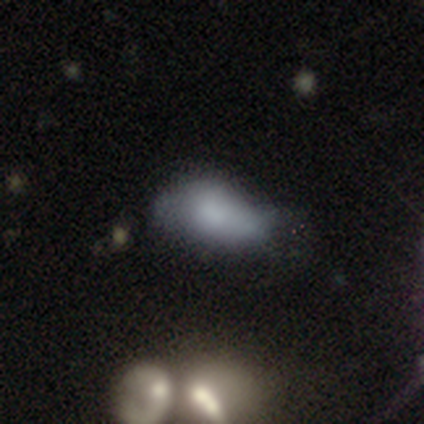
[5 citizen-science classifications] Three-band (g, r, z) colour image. It shows a smooth galaxy with no disk features (80%) that is in between round and cigar-shaped (100%). Merging: minor disturbance (75%).